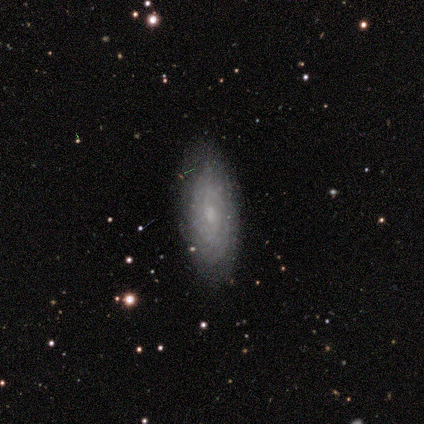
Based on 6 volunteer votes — smooth-or-featured: featured or disk: 50% | smooth: 33% | star or artifact: 17%
  disk-edge-on: no: 100% | yes: 0%
    bar: no: 67% | strong: 33% | weak: 0%
    has-spiral-arms: no: 67% | yes: 33%
    bulge-size: moderate: 67% | small: 33% | dominant: 0% | large: 0% | none: 0%
  merging: none: 80% | minor disturbance: 20% | major disturbance: 0% | merger: 0%